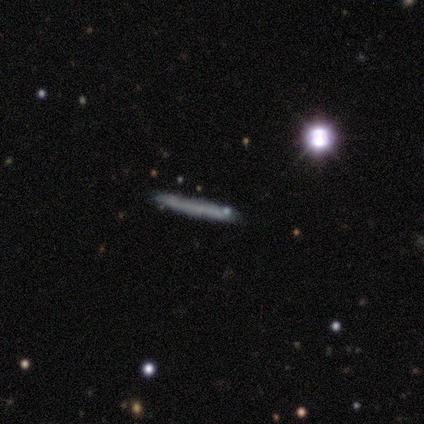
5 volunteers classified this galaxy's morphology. Smooth or featured: smooth — 80% (star or artifact — 20%)
How rounded: cigar-shaped — 100%
Merging: none — 100%